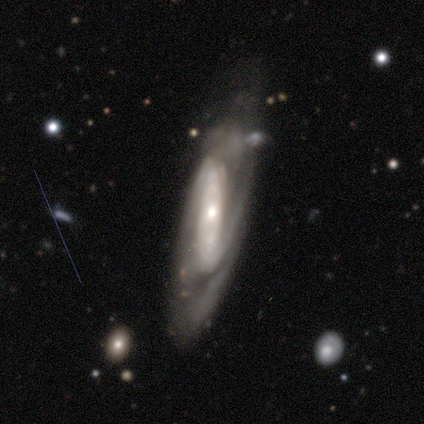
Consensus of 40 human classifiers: smooth-or-featured: featured or disk: 90% | smooth: 5% | star or artifact: 5%
  disk-edge-on: no: 92% | yes: 8%
    bar: strong: 55% | no: 30% | weak: 15%
    has-spiral-arms: yes: 97% | no: 3%
      spiral-winding: medium: 41% | tight: 38% | loose: 22%
      spiral-arm-count: 2: 69% | can't tell: 19% | 3: 12% | 1: 0% | 4: 0% | more than 4: 0%
    bulge-size: small: 58% | moderate: 36% | large: 6% | dominant: 0% | none: 0%
  merging: none: 76% | minor disturbance: 11% | major disturbance: 8% | merger: 5%